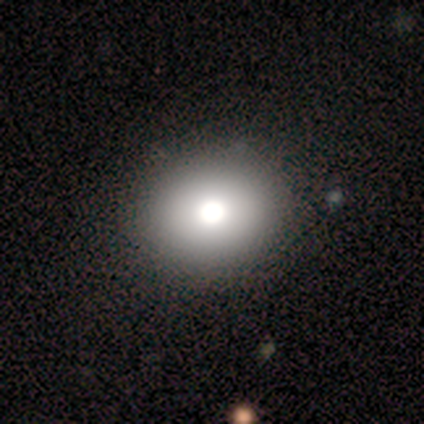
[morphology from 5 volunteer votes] type=smooth (60%); roundness=round (67%); merging=none (100%).